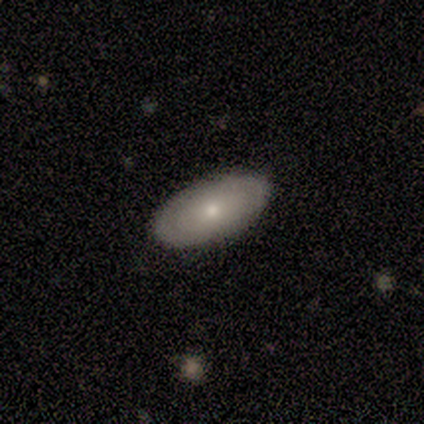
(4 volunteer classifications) Smooth or featured: smooth — 50% (featured or disk — 25%)
How rounded: in between — 100%
Merging: none — 100%